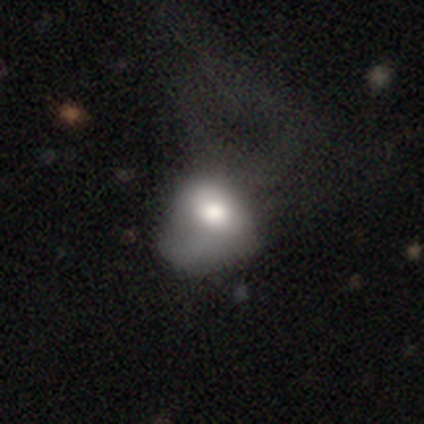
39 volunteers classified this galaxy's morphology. Smooth or featured?
  - smooth: 62% *
  - featured or disk: 33%
  - star or artifact: 5%
How rounded?
  - in between: 75% *
  - round: 21%
  - cigar-shaped: 4%
Merging?
  - major disturbance: 41% *
  - none: 11%
  - minor disturbance: 8%
  - merger: 5%